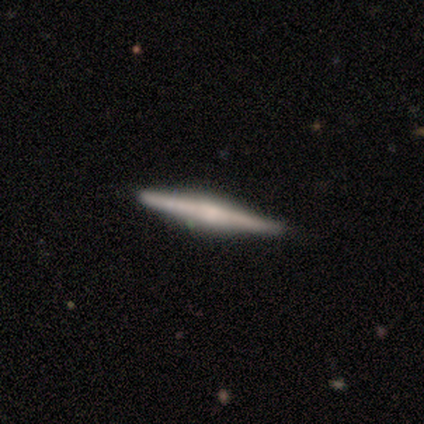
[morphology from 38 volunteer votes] A featured or disk galaxy (82%) viewed edge-on (100%) with a rounded central bulge (52%).

Vote fractions:
- Smooth or featured? featured or disk: 82% / smooth: 18% / star or artifact: 0%
- Edge-on disk? yes: 100% / no: 0%
- Edge-on bulge? rounded: 52% / none: 29% / boxy: 19%
- Merging? none: 92% / minor disturbance: 5% / merger: 3% / major disturbance: 0%